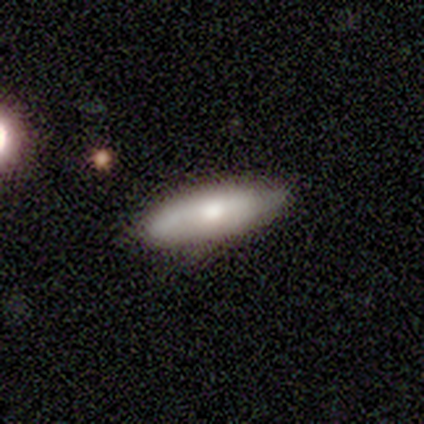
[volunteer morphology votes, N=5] Smooth or featured: smooth — 60% (featured or disk — 40%)
How rounded: in between — 67% (cigar-shaped — 33%)
Merging: none — 80% (minor disturbance — 20%)